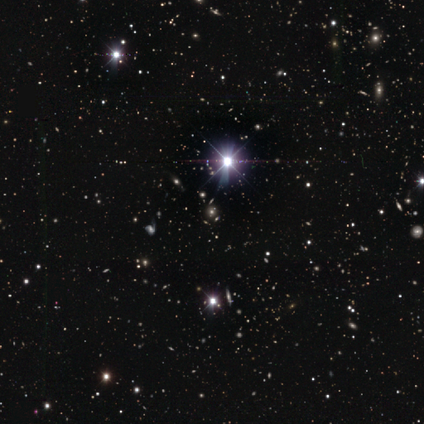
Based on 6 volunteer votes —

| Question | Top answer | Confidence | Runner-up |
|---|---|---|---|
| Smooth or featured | star or artifact | 100% | — |